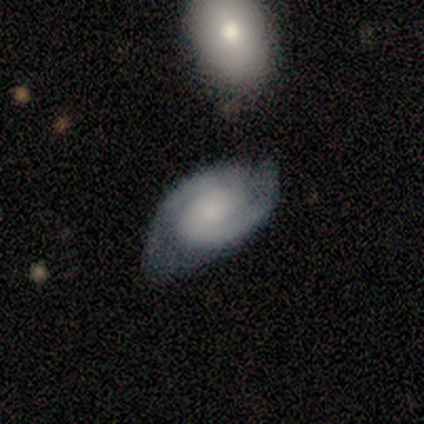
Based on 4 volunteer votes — smooth-or-featured: featured or disk: 100% | smooth: 0% | star or artifact: 0%
  disk-edge-on: no: 100% | yes: 0%
    bar: no: 50% | strong: 25% | weak: 25%
    has-spiral-arms: yes: 100% | no: 0%
      spiral-winding: medium: 75% | tight: 25% | loose: 0%
      spiral-arm-count: 2: 100% | 1: 0% | 3: 0% | 4: 0% | more than 4: 0% | can't tell: 0%
    bulge-size: small: 75% | none: 25% | dominant: 0% | large: 0% | moderate: 0%
  merging: none: 100% | minor disturbance: 0% | major disturbance: 0% | merger: 0%